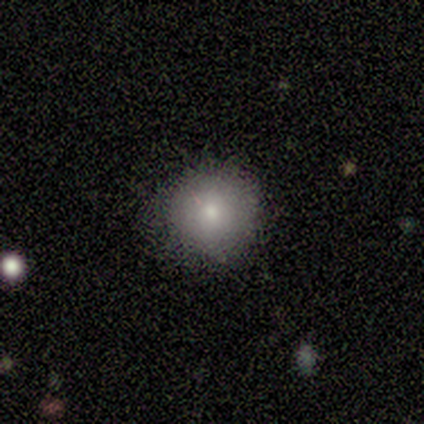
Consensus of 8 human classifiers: Morphology: type=smooth (62%); roundness=round (100%); merging=none (86%).